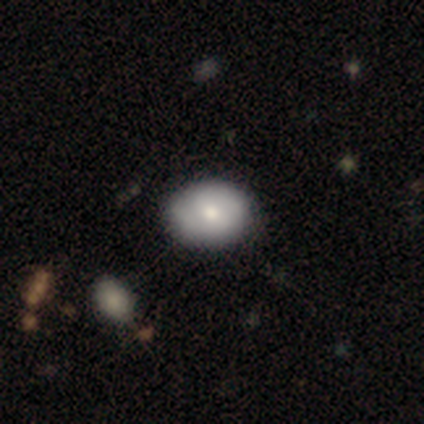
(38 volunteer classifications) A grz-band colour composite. It shows a smooth galaxy with no disk features (68%) that is in between round and cigar-shaped (69%). Merging: none (71%).